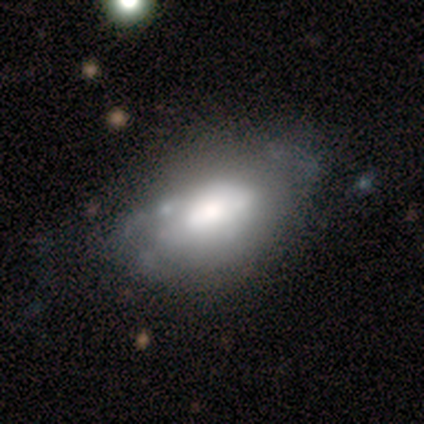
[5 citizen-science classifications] Smooth or featured? smooth (60%)
How rounded? in between (100%)
Merging? none (50%, tied with major disturbance)